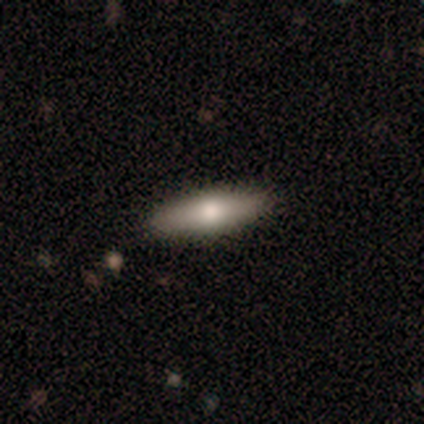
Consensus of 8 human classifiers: This appears to be a smooth galaxy with no disk features (75%) that is cigar-shaped (83%). Merging: none (100%).